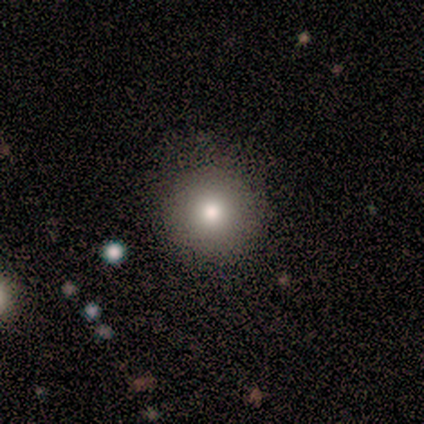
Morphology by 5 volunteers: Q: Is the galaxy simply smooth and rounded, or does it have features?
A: smooth — 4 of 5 (80%).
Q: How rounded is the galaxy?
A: round — 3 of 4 (75%).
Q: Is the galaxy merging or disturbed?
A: none — 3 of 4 (75%).